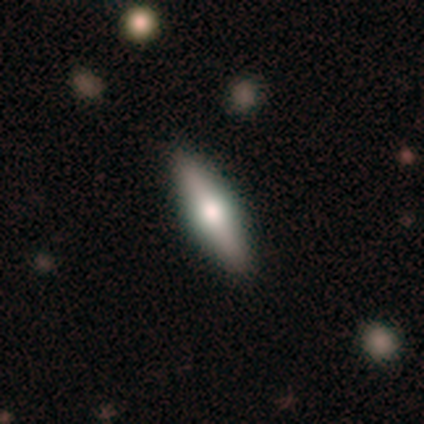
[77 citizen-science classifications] Volunteers were most divided on "smooth or featured": featured or disk: 52%, smooth: 43%, star or artifact: 5%. Remaining: edge-on disk — yes (92%); edge-on bulge — rounded (92%); merging — none (47%).